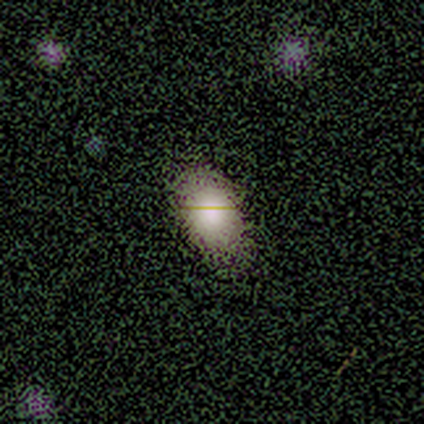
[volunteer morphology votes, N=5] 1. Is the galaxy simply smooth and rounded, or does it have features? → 60% smooth, 20% featured or disk, 20% star or artifact.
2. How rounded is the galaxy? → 100% in between, 0% round, 0% cigar-shaped.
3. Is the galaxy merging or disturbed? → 100% none, 0% minor disturbance, 0% major disturbance, 0% merger.